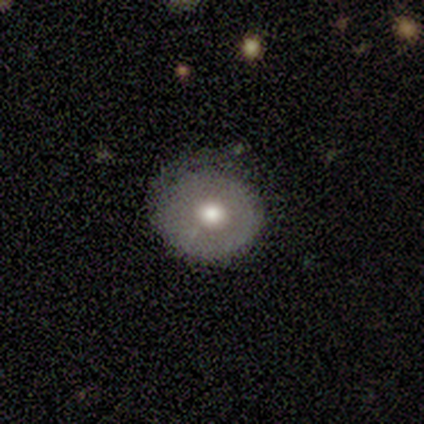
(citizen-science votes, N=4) Smooth or featured? smooth (50%, tied with featured or disk)
How rounded? round (100%)
Merging? none (75%)